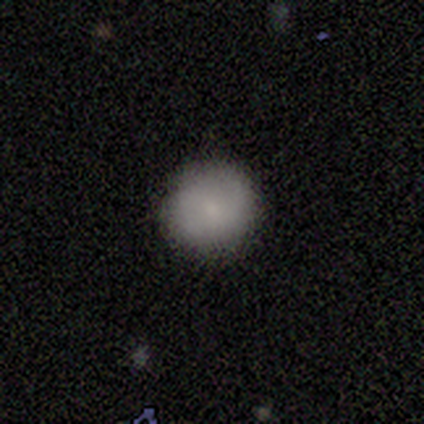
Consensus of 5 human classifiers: Smooth or featured? smooth (80%)
How rounded? round (100%)
Merging? none (100%)